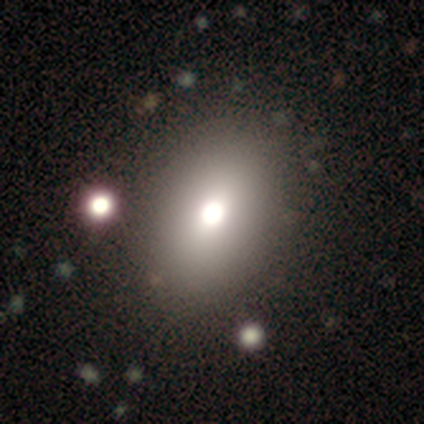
smooth-or-featured: smooth: 100% | featured or disk: 0% | star or artifact: 0%
  how-rounded: in between: 100% | round: 0% | cigar-shaped: 0%
  merging: none: 75% | minor disturbance: 25% | major disturbance: 0% | merger: 0%